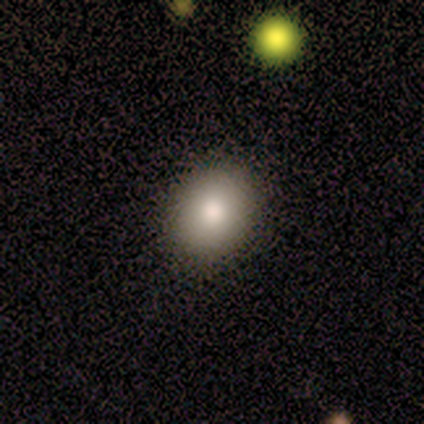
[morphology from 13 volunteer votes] smooth 77%, star or artifact 15%, featured or disk 8%. Down the decision tree: how rounded — round (50%, tied with in between); merging — none (100%).